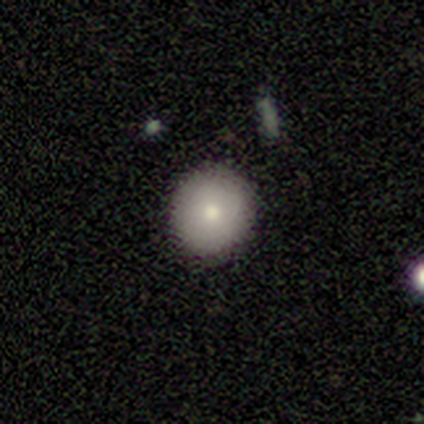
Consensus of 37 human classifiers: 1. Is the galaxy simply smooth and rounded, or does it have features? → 78% smooth, 14% featured or disk, 8% star or artifact.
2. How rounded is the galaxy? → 90% round, 7% cigar-shaped, 3% in between.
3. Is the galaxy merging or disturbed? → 94% none, 6% minor disturbance, 0% major disturbance, 0% merger.